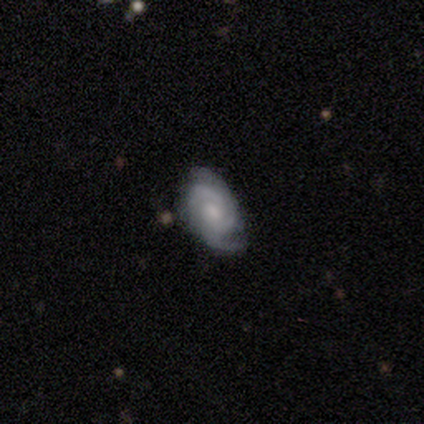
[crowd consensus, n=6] This appears to be a smooth galaxy with no disk features (50%, tied with featured or disk) that is in between round and cigar-shaped (100%). Merging: none (67%).